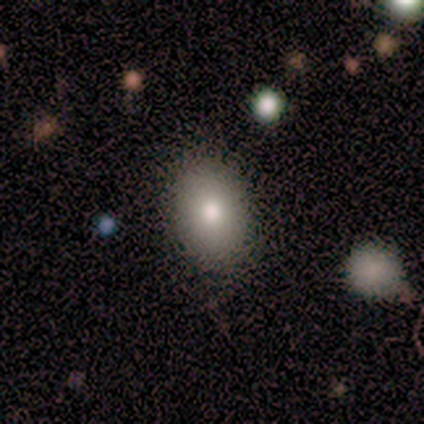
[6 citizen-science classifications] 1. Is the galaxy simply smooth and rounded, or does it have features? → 100% smooth, 0% featured or disk, 0% star or artifact.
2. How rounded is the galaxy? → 100% in between, 0% round, 0% cigar-shaped.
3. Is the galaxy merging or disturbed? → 100% none, 0% minor disturbance, 0% major disturbance, 0% merger.